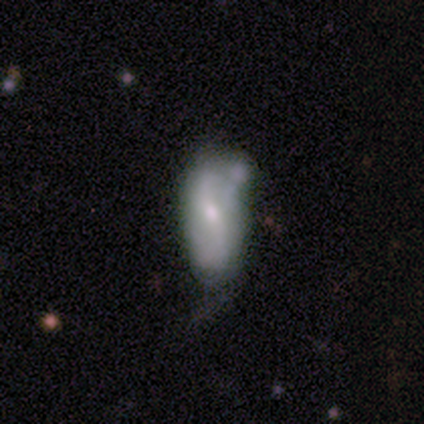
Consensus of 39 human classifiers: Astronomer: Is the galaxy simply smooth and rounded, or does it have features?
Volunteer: featured or disk — 62%.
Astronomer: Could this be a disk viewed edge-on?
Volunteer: no — 100%.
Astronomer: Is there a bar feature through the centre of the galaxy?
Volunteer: weak — 58%.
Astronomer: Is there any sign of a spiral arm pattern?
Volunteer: yes — 75%.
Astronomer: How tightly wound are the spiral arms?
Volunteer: loose — 61%.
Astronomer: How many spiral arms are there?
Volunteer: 2 — 89%.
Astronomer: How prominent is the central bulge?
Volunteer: moderate — 50% (runner-up: small, 42%).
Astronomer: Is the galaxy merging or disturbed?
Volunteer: minor disturbance — 43% (runner-up: none, 31%).